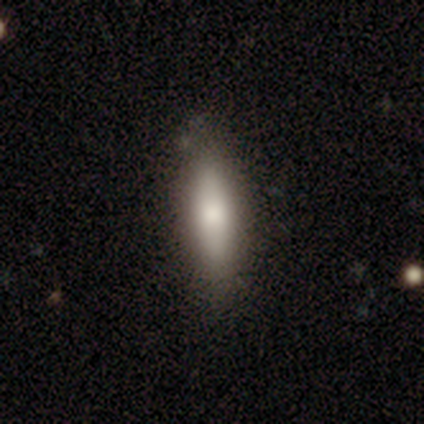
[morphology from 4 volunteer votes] A smooth galaxy with no disk features (75%) that is cigar-shaped (67%).

Vote fractions:
- Smooth or featured? smooth: 75% / featured or disk: 25% / star or artifact: 0%
- How rounded? cigar-shaped: 67% / in between: 33% / round: 0%
- Merging? none: 75% / minor disturbance: 25% / major disturbance: 0% / merger: 0%